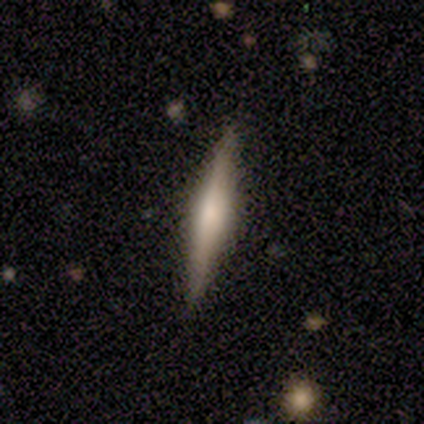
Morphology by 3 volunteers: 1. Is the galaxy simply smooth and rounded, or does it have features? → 100% featured or disk, 0% smooth, 0% star or artifact.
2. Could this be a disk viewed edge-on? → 100% yes, 0% no.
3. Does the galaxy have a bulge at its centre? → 100% rounded, 0% boxy, 0% none.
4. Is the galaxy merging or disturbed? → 100% none, 0% minor disturbance, 0% major disturbance, 0% merger.